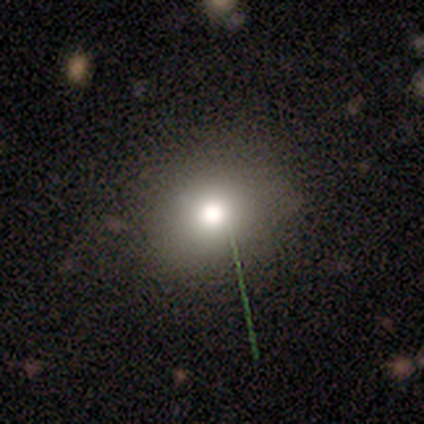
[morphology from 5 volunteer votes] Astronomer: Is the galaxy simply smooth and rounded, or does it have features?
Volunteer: smooth — 100%.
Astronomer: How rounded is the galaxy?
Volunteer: round — 100%.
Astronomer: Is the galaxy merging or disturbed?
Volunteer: none — 80%.